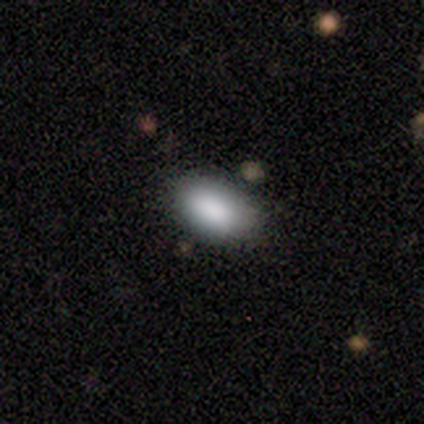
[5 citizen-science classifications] Smooth or featured?
  - smooth: 100% *
  - featured or disk: 0%
  - star or artifact: 0%
How rounded?
  - in between: 100% *
  - round: 0%
  - cigar-shaped: 0%
Merging?
  - none: 100% *
  - minor disturbance: 0%
  - major disturbance: 0%
  - merger: 0%